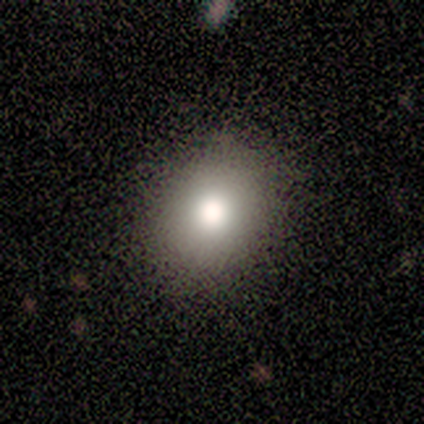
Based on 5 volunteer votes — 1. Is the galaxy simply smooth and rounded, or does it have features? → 80% smooth, 20% star or artifact, 0% featured or disk.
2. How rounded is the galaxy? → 50% round (tied), 50% in between (tied), 0% cigar-shaped.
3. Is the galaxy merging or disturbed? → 75% none, 25% minor disturbance, 0% major disturbance, 0% merger.